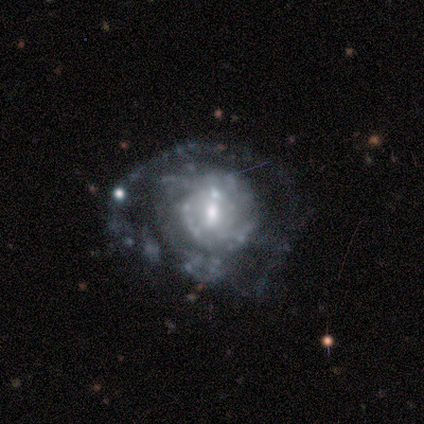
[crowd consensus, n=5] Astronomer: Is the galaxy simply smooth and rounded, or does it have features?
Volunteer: featured or disk — 100%.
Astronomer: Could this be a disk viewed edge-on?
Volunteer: no — 100%.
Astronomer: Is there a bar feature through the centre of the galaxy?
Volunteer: no — 60% (runner-up: weak, 40%).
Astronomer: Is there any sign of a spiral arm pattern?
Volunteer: yes — 80%.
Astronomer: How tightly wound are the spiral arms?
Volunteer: loose — 50%.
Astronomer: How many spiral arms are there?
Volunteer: can't tell — 75%.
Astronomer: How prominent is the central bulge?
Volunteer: small — 60%.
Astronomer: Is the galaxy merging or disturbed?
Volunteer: none — 40%, tied with major disturbance at 40%.